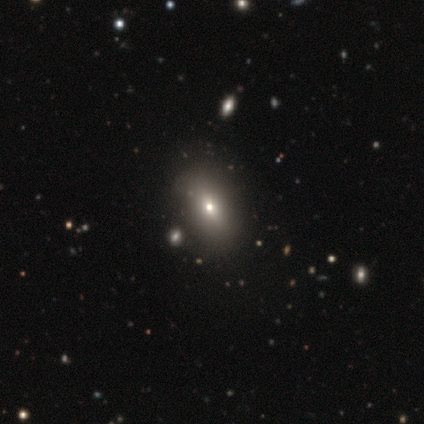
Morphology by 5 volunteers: smooth-or-featured: smooth: 60% | featured or disk: 20% | star or artifact: 20%
  how-rounded: in between: 67% | round: 33% | cigar-shaped: 0%
  merging: none: 100% | minor disturbance: 0% | major disturbance: 0% | merger: 0%